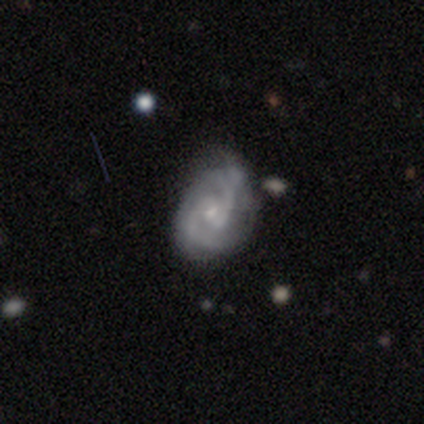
Volunteers were most divided on "bar" (2-way tie): weak: 40%, no: 40%, strong: 20%. More confident: smooth or featured — featured or disk (100%); edge-on disk — no (100%); spiral arms — yes (100%); spiral arm count — 2 (80%); bulge size — small (80%); merging — none (80%); spiral winding — medium (60%).